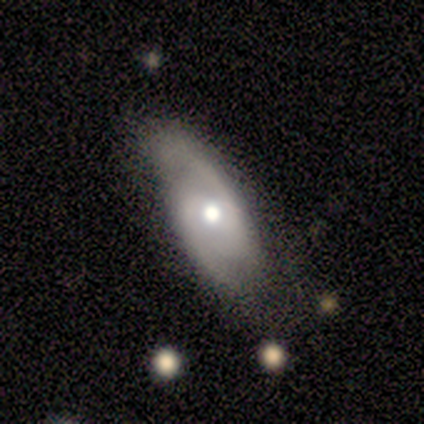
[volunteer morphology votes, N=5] Smooth or featured: featured or disk — 80% (smooth — 20%)
Edge-on disk: no — 100%
Bar: weak — 50% (tied with no — 50%)
Spiral arms: yes — 75% (no — 25%)
Spiral winding: medium — 67% (loose — 33%)
Spiral arm count: 2 — 100%
Bulge size: moderate — 100%
Merging: minor disturbance — 60% (none — 40%)